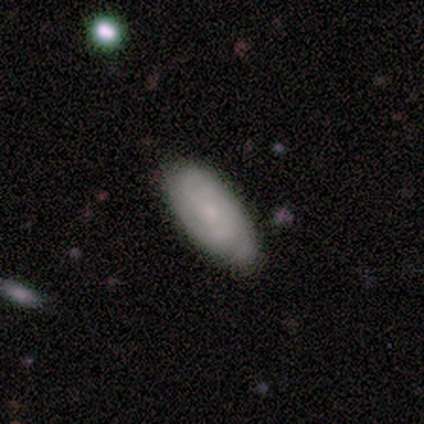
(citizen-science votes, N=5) Smooth or featured? 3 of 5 (60%) said featured or disk. Edge-on disk? 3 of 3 (100%) said no. Bar? 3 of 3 (100%) said no. Spiral arms? 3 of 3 (100%) said yes. Spiral winding? 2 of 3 (67%) said tight. Spiral arm count? 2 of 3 (67%) said 3. Bulge size? 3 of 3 (100%) said small. Merging? 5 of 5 (100%) said none.